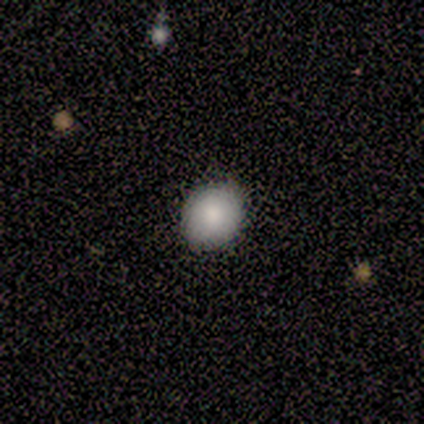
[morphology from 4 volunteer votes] Smooth or featured: smooth — 100%
How rounded: round — 50% (tied with in between — 50%)
Merging: none — 75% (minor disturbance — 25%)